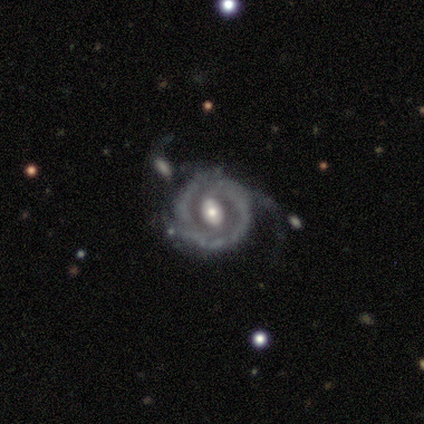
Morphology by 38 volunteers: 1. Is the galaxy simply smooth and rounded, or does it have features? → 87% featured or disk, 11% smooth, 3% star or artifact.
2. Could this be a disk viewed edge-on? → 100% no, 0% yes.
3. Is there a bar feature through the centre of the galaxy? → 48% weak (tied), 48% no (tied), 3% strong.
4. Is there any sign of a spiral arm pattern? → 88% yes, 12% no.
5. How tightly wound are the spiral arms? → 38% medium, 31% tight, 31% loose.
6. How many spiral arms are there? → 59% 2, 28% can't tell, 7% 1, 7% 3, 0% 4, 0% more than 4.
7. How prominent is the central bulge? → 61% moderate, 21% small, 18% large, 0% dominant, 0% none.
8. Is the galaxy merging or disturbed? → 46% none, 27% minor disturbance, 22% major disturbance, 5% merger.